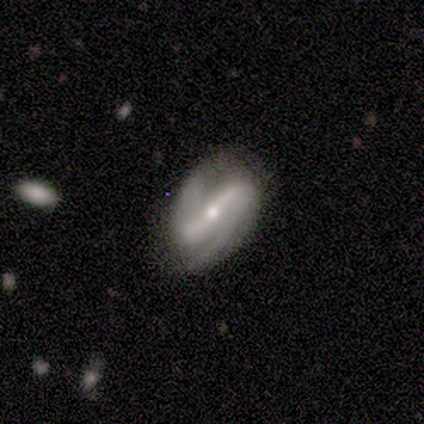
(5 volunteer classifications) Morphology: type=featured or disk (80%); edge-on=no (75%); bar=strong (67%); spiral arms=yes (100%); winding=medium (67%); arm count=2 (67%); bulge=small (100%); merging=minor disturbance (50%).